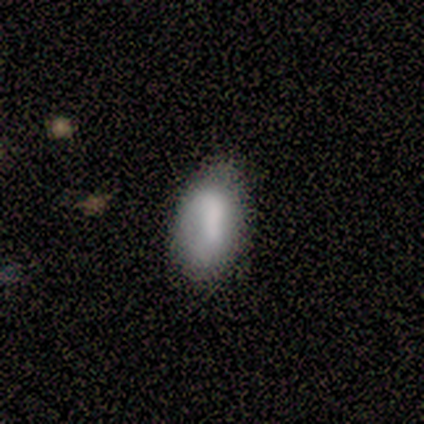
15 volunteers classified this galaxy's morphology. This appears to be a smooth galaxy with no disk features (73%) that is in between round and cigar-shaped (100%). Merging: none (77%).